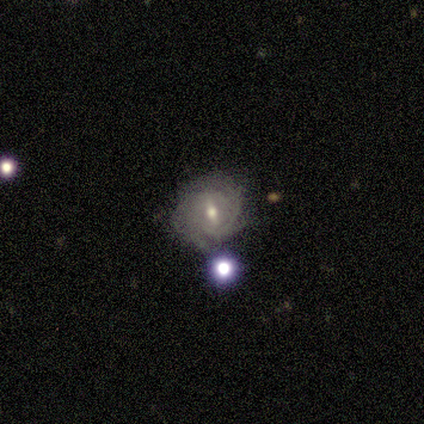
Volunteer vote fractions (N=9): Volunteers were most divided on "bar" (2-way tie): strong: 40%, weak: 40%, no: 20%; "spiral winding" (2-way tie): tight: 40%, medium: 40%, loose: 20%; "spiral arm count" (2-way tie): 3: 40%, can't tell: 40%, 4: 20%, 1: 0%, 2: 0%, more than 4: 0%. More confident: spiral arms — yes (100%); merging — none (86%); edge-on disk — no (83%); smooth or featured — featured or disk (67%); bulge size — small (60%).